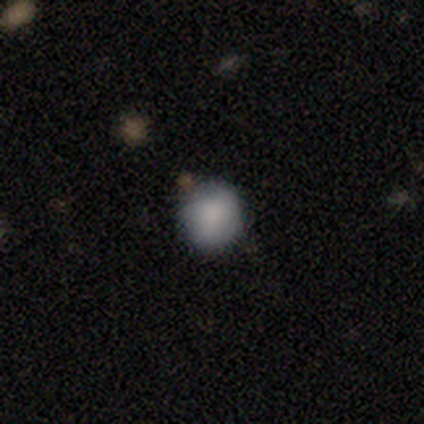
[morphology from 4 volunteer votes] Smooth or featured? smooth (75%)
How rounded? round (100%)
Merging? none (50%, tied with minor disturbance)